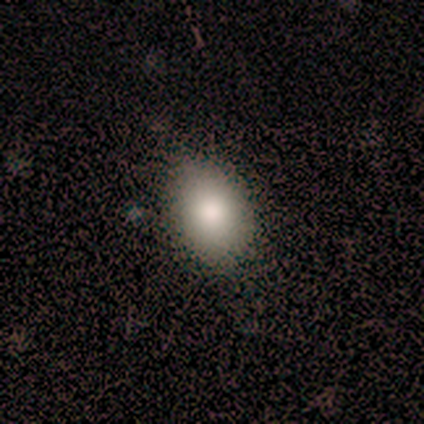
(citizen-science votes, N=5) Smooth or featured? 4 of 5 (80%) said smooth. How rounded? 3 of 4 (75%) said in between. Merging? 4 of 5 (80%) said none.